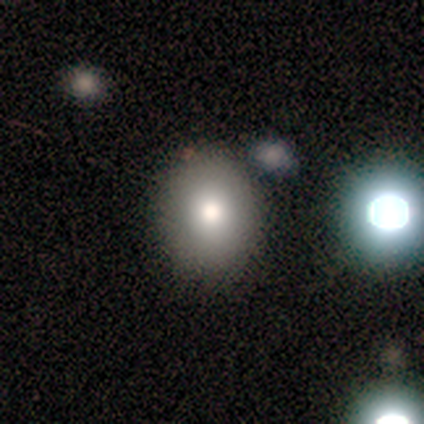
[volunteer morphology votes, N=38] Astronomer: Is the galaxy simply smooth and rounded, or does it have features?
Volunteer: smooth — 82%.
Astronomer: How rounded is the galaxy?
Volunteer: in between — 52% (runner-up: round, 48%).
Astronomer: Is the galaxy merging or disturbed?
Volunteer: none — 88%.